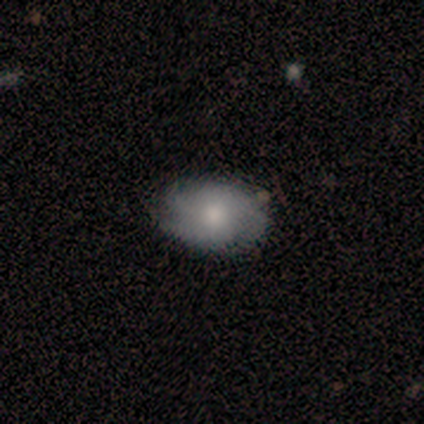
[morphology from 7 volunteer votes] Q: Smooth or featured?
A: featured or disk (71%); runner-up: smooth (14%)
Q: Edge-on disk?
A: no (80%); runner-up: yes (20%)
Q: Bar?
A: no (100%)
Q: Spiral arms?
A: yes (100%)
Q: Spiral winding?
A: medium (75%); runner-up: tight (25%)
Q: Spiral arm count?
A: 3 (100%)
Q: Bulge size?
A: moderate (75%); runner-up: small (25%)
Q: Merging?
A: none (100%)